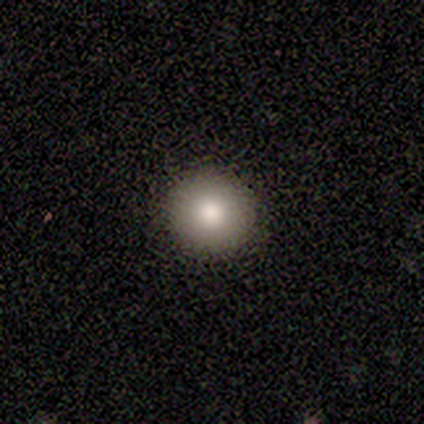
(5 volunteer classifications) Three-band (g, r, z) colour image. It shows a smooth galaxy with no disk features (60%) that is round (100%). Merging: none (100%).